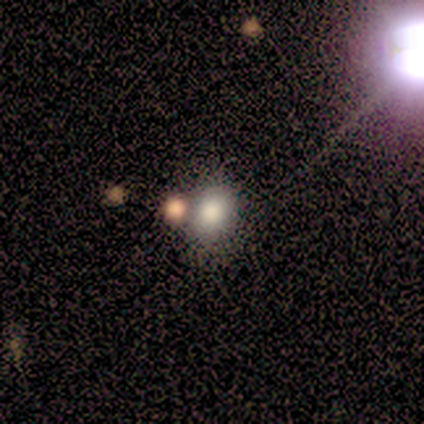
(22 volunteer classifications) Overall: smooth (77%). How rounded: round (59%; in between 41%). Merging: none (65%).